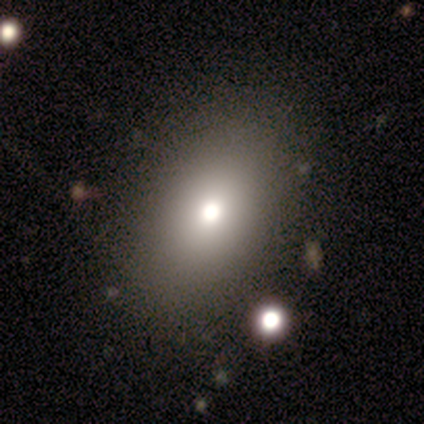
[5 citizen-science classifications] This is clearly a smooth galaxy (80%). How rounded: clearly in between (100%). Merging: likely none (75%).